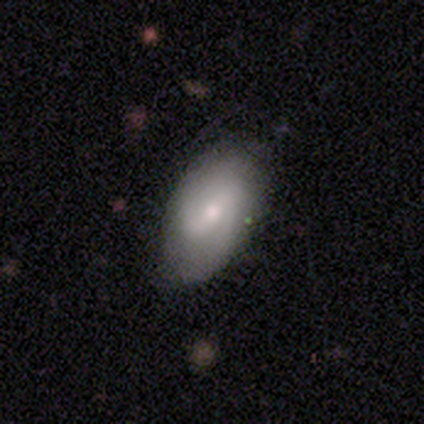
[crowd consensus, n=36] This is possibly a featured or disk galaxy (58%). It is clearly not viewed edge-on (95%). Bar: likely weak (65%). Spiral arm pattern: likely yes (75%). Spiral arm count: likely 2 (73%). Spiral winding: likely medium (60%). Central bulge: possibly small (55%). Merging: likely none (77%).